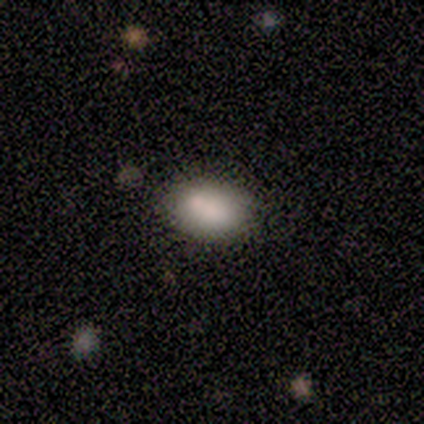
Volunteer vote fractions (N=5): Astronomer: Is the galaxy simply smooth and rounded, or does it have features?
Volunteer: smooth — 100%.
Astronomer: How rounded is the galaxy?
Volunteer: in between — 100%.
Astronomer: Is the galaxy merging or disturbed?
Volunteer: none — 100%.